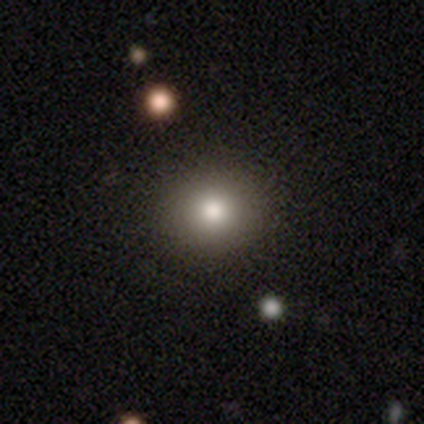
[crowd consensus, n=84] smooth 86%, featured or disk 7%, star or artifact 7%. Down the decision tree: how rounded — round (83%); merging — none (94%).